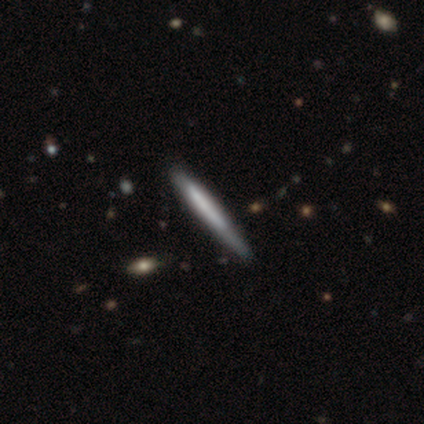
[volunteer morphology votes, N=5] Volunteers were most divided on "merging": none: 60%, minor disturbance: 20%, major disturbance: 20%, merger: 0%. More confident: smooth or featured — smooth (100%); how rounded — cigar-shaped (100%).